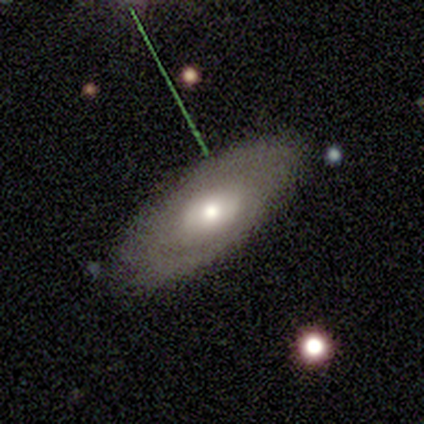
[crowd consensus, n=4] smooth_or_featured: featured or disk (p=1.00)
disk_edge_on: no (p=1.00)
bar: no (p=0.75) [alt: weak p=0.25]
has_spiral_arms: no (p=1.00)
bulge_size: moderate (p=1.00)
merging: none (p=1.00)